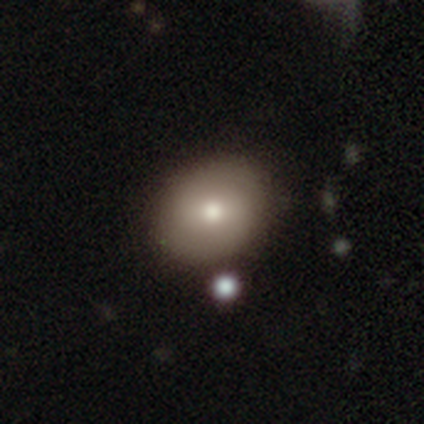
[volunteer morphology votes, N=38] This is likely a smooth galaxy (76%). How rounded: likely round (62%). Merging: clearly none (86%).